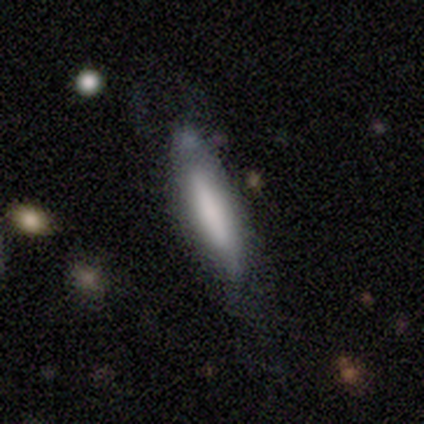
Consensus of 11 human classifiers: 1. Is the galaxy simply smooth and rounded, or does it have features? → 73% smooth, 27% featured or disk, 0% star or artifact.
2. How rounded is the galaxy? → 75% cigar-shaped, 25% in between, 0% round.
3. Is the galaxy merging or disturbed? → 73% none, 9% minor disturbance, 9% major disturbance, 9% merger.